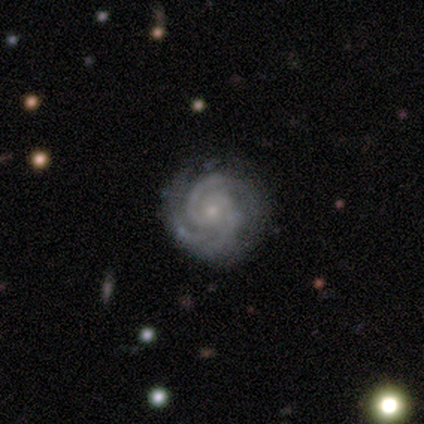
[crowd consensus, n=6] Smooth or featured?
  - featured or disk: 83% *
  - star or artifact: 17%
  - smooth: 0%
Edge-on disk?
  - no: 100% *
  - yes: 0%
Bar?
  - no: 80% *
  - weak: 20%
  - strong: 0%
Spiral arms?
  - yes: 80% *
  - no: 20%
Spiral winding?
  - tight: 75% *
  - medium: 25%
  - loose: 0%
Spiral arm count?
  - 2: 50% * (tied)
  - 3: 50% * (tied)
  - 1: 0%
  - 4: 0%
  - more than 4: 0%
  - can't tell: 0%
Bulge size?
  - small: 100% *
  - dominant: 0%
  - large: 0%
  - moderate: 0%
  - none: 0%
Merging?
  - none: 60% *
  - minor disturbance: 40%
  - major disturbance: 0%
  - merger: 0%